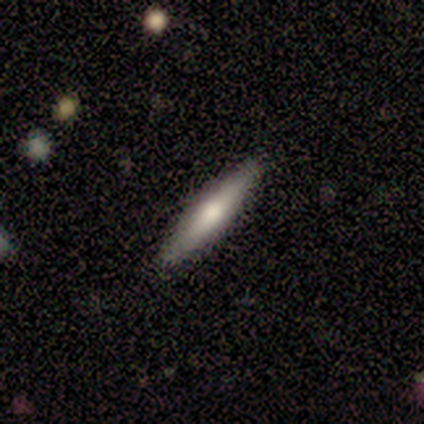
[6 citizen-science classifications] smooth-or-featured: smooth: 67% | featured or disk: 33% | star or artifact: 0%
  how-rounded: cigar-shaped: 100% | round: 0% | in between: 0%
  merging: none: 100% | minor disturbance: 0% | major disturbance: 0% | merger: 0%